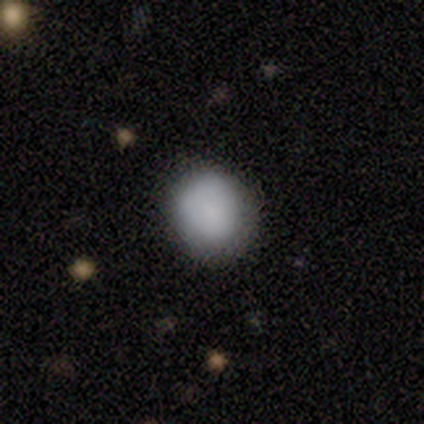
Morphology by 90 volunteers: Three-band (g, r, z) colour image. It shows a smooth galaxy with no disk features (91%) that is round (84%). Merging: none (81%).